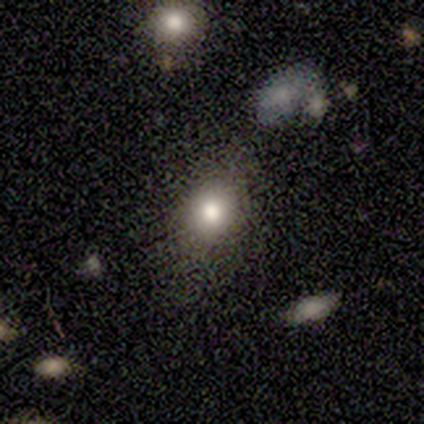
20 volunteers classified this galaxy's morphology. smooth 90%, star or artifact 10%, featured or disk 0%. Down the decision tree: how rounded — round (50%, tied with in between); merging — none (78%).